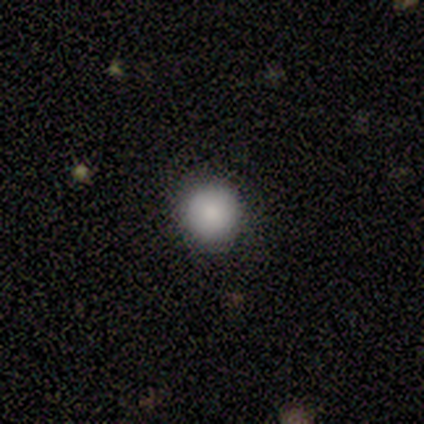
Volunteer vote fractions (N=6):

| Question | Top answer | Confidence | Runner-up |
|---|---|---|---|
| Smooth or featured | smooth | 100% | — |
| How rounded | round | 100% | — |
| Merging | none | 100% | — |